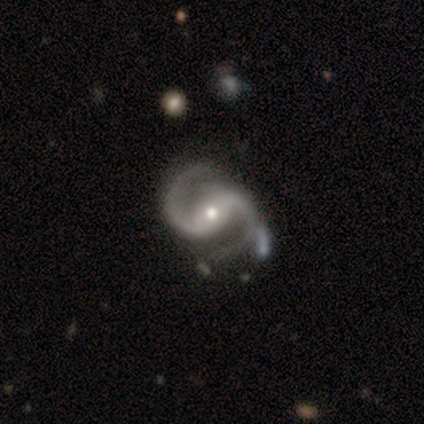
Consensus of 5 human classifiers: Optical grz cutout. It shows a featured or disk galaxy (100%) with a strong bar (40%, tied with no), 2 (100%) medium (40%, tied with loose) spiral arms (100%) and a small central bulge (60%). Merging: none (80%).